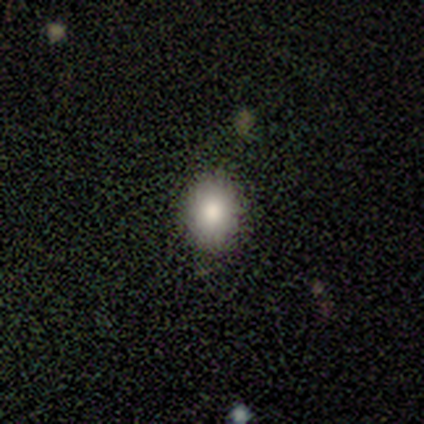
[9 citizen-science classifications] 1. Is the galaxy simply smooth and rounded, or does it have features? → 67% smooth, 22% star or artifact, 11% featured or disk.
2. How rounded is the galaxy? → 67% in between, 33% round, 0% cigar-shaped.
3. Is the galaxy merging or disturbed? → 86% none, 14% minor disturbance, 0% major disturbance, 0% merger.